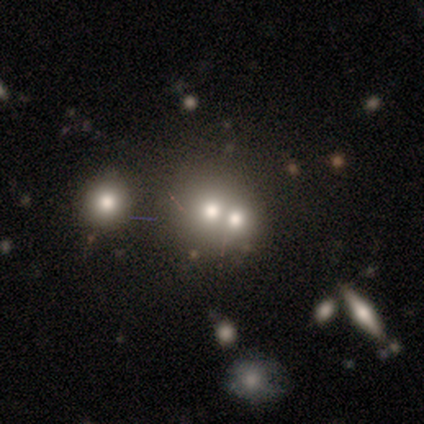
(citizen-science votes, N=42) This appears to be a smooth galaxy with no disk features (50%) that is round (76%). Merging: merger (57%).